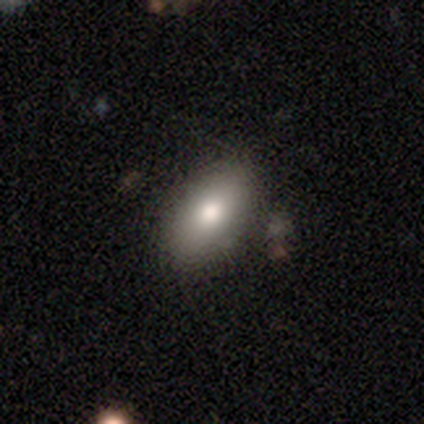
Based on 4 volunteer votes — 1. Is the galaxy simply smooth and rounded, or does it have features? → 50% smooth, 25% featured or disk, 25% star or artifact.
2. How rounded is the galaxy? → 100% in between, 0% round, 0% cigar-shaped.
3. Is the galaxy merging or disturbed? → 100% none, 0% minor disturbance, 0% major disturbance, 0% merger.